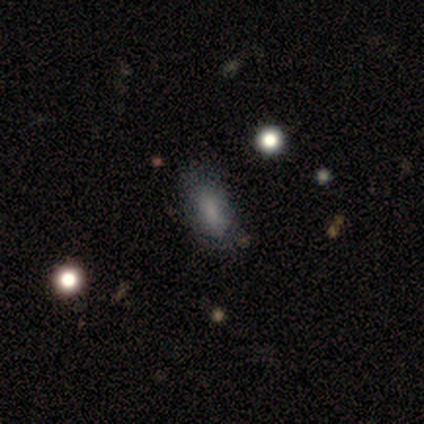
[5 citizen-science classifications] smooth-or-featured: smooth: 80% | star or artifact: 20% | featured or disk: 0%
  how-rounded: in between: 75% | round: 25% | cigar-shaped: 0%
  merging: minor disturbance: 75% | none: 25% | major disturbance: 0% | merger: 0%